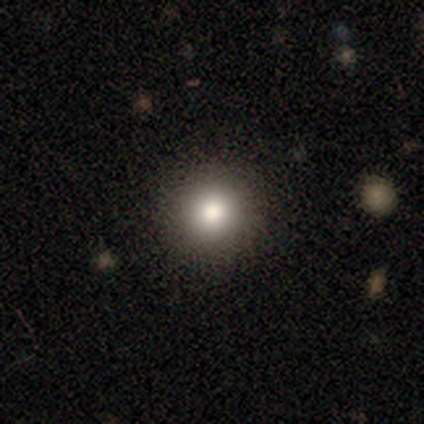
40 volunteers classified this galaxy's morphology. smooth 78%, star or artifact 20%, featured or disk 2%. Down the decision tree: how rounded — round (100%); merging — none (97%).